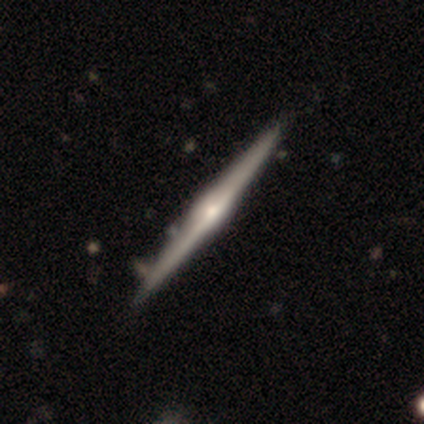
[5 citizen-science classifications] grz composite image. It shows a featured or disk galaxy (100%) viewed edge-on (100%) with a rounded central bulge (80%). Merging: none (100%).